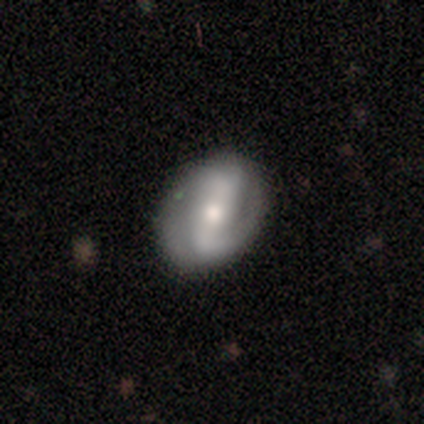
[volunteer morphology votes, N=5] smooth_or_featured: featured or disk (p=0.80) [alt: star or artifact p=0.20]
disk_edge_on: no (p=1.00)
bar: strong (p=0.75) [alt: no p=0.25]
has_spiral_arms: yes (p=1.00)
spiral_winding: medium (p=0.50) [alt: tight p=0.25]
spiral_arm_count: 2 (p=0.50) [tied with: can't tell p=0.50]
bulge_size: moderate (p=0.50) [tied with: small p=0.50]
merging: none (p=1.00)